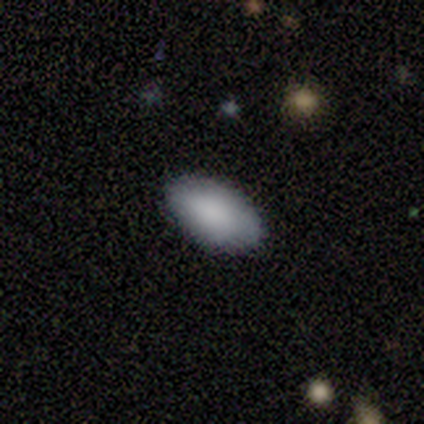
Morphology: type=smooth (87%); roundness=in between (100%); merging=none (92%).